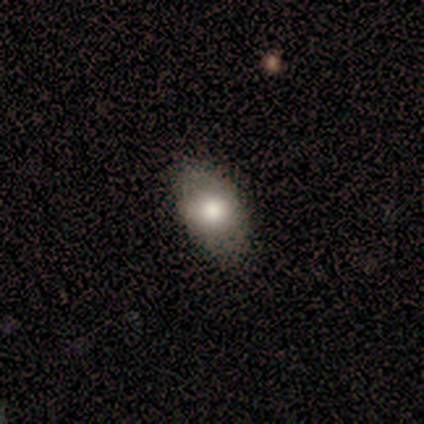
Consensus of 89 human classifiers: Morphology: type=smooth (71%); roundness=in between (87%); merging=none (84%).